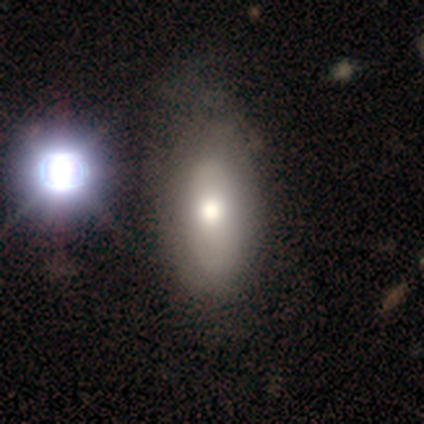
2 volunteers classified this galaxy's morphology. smooth 50% (tied), featured or disk 50% (tied), star or artifact 0%. Down the decision tree: how rounded — in between (100%); merging — none (100%).